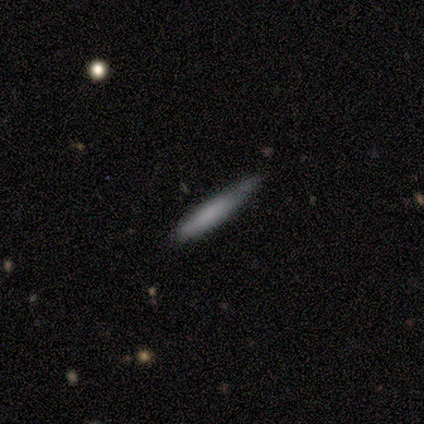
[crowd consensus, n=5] This appears to be a smooth galaxy with no disk features (60%) that is cigar-shaped (67%). Merging: minor disturbance (60%).